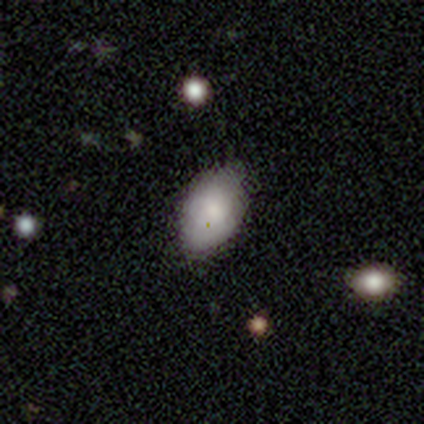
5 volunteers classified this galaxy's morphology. Smooth or featured? smooth (100%)
How rounded? in between (100%)
Merging? none (60%)